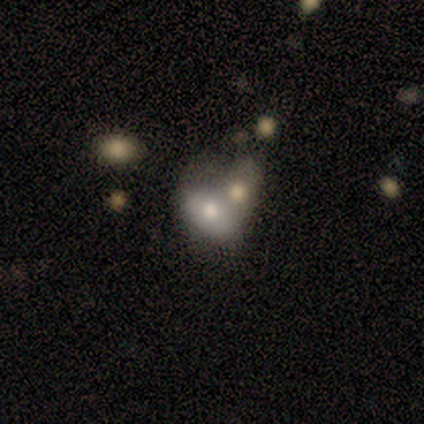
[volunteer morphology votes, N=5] This appears to be a smooth galaxy with no disk features (80%) that is in between round and cigar-shaped (75%). Merging: none (60%).